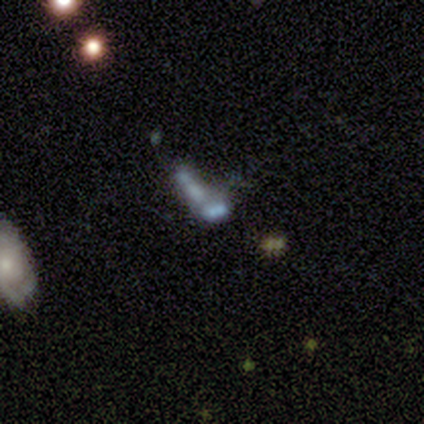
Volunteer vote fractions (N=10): Morphology: type=featured or disk (50%); edge-on=no (100%); bar=no (100%); spiral arms=no (100%); bulge=none (80%); merging=merger (43%).